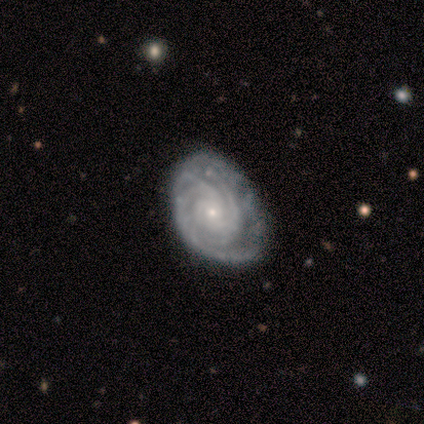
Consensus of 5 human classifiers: A featured or disk galaxy (80%) with no bar (50%), 2 (25%, tied with 3, 4 and more than 4) tight (75%) spiral arms (100%) and a moderate central bulge (50%, tied with small). Merging: minor disturbance (60%).